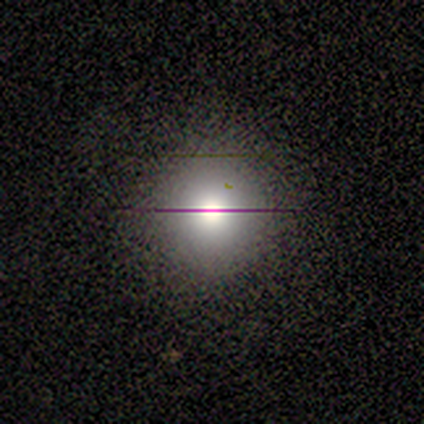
Morphology: type=smooth (60%); roundness=round (100%); merging=none (75%).